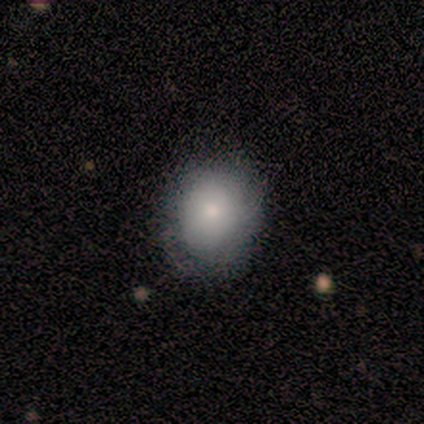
Smooth or featured?
  - smooth: 80% *
  - featured or disk: 20%
  - star or artifact: 0%
How rounded?
  - round: 75% *
  - in between: 25%
  - cigar-shaped: 0%
Merging?
  - none: 80% *
  - minor disturbance: 20%
  - major disturbance: 0%
  - merger: 0%